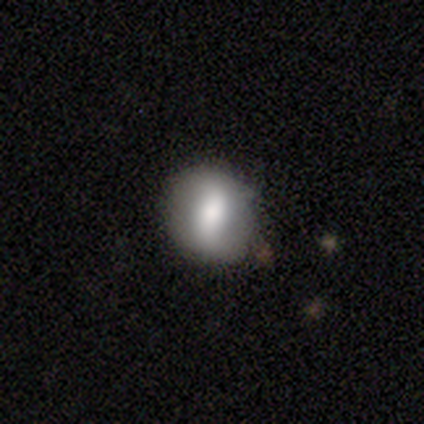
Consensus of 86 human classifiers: Smooth or featured?
  - smooth: 58% *
  - featured or disk: 33%
  - star or artifact: 9%
How rounded?
  - round: 62% *
  - in between: 34%
  - cigar-shaped: 4%
Merging?
  - none: 76% *
  - minor disturbance: 18%
  - merger: 4%
  - major disturbance: 3%